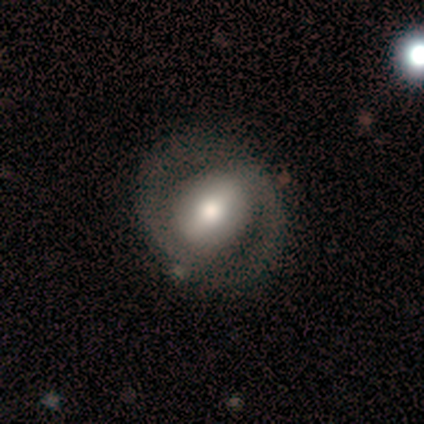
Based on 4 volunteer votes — smooth 50% (tied), featured or disk 50% (tied), star or artifact 0%. Down the decision tree: how rounded — round (100%); merging — none (100%).